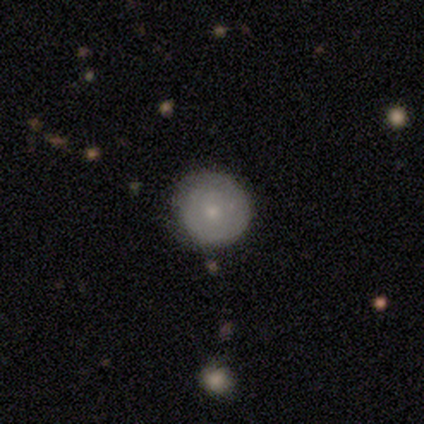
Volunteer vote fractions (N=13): Smooth or featured: smooth — 46% (tied with featured or disk — 46%)
How rounded: round — 100%
Merging: none — 75% (minor disturbance — 25%)